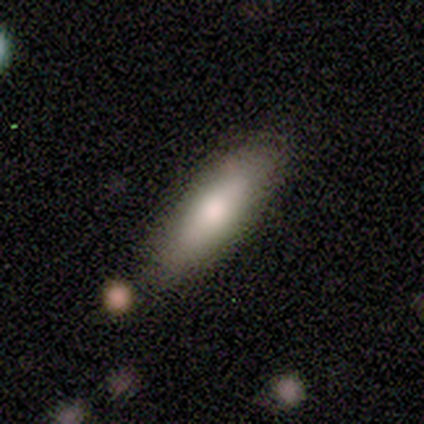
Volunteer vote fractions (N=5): Smooth or featured? 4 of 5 (80%) said smooth. How rounded? 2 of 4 (50%, tied with cigar-shaped) said in between. Merging? 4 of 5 (80%) said none.